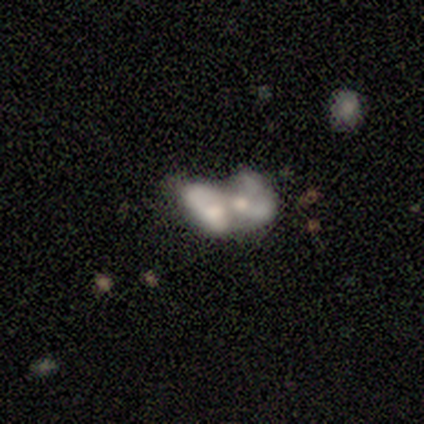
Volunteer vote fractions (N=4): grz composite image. It shows a featured or disk galaxy (75%) with no bar (67%), no spiral arms (100%) and no central bulge (67%). Merging: merger (75%).